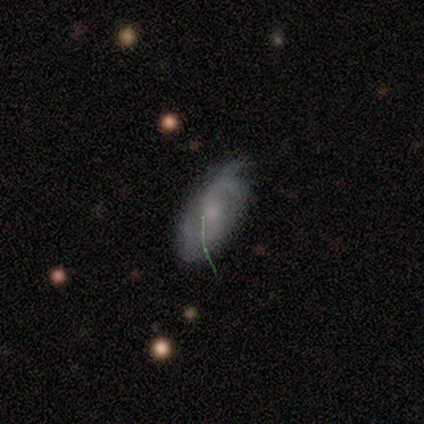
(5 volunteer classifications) smooth_or_featured: featured or disk (p=0.60) [alt: smooth p=0.40]
disk_edge_on: no (p=1.00)
bar: no (p=0.67) [alt: strong p=0.33]
has_spiral_arms: yes (p=0.67) [alt: no p=0.33]
spiral_winding: tight (p=0.50) [tied with: medium p=0.50]
spiral_arm_count: 2 (p=0.50) [tied with: can't tell p=0.50]
bulge_size: small (p=1.00)
merging: minor disturbance (p=0.80) [alt: none p=0.20]